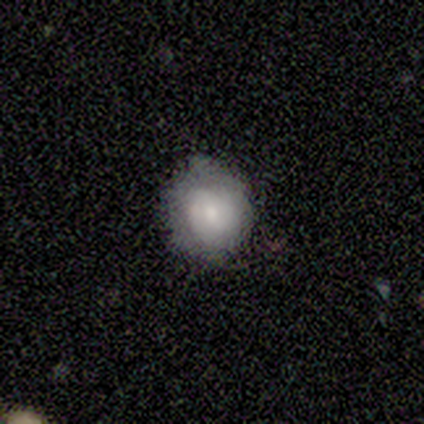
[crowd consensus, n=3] This is clearly a smooth galaxy (100%). How rounded: likely round (67%). Merging: likely none (67%).